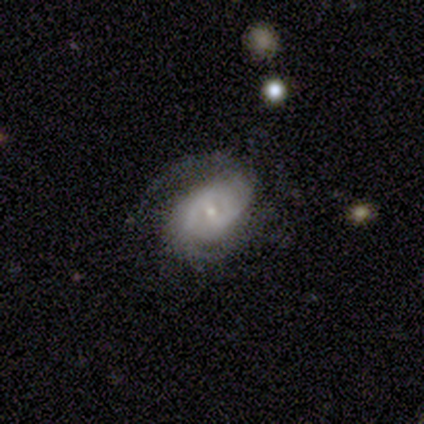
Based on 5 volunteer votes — Overall: featured or disk (100%). Edge-on disk: no (100%). Bar: weak (60%; no 40%). Spiral arms: yes (100%). Spiral arm count: 2 (80%). Spiral winding: medium (80%). Bulge size: small (80%). Merging: none (60%; minor disturbance 40%).